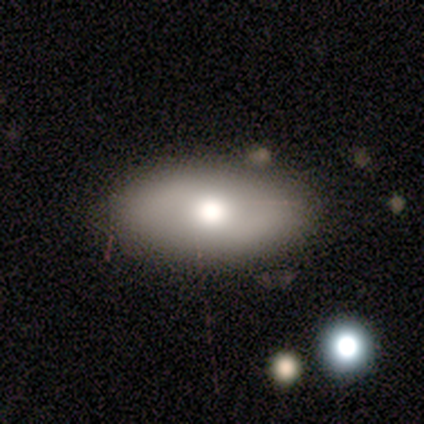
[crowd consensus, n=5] Smooth or featured? 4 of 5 (80%) said smooth. How rounded? 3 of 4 (75%) said in between. Merging? 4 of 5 (80%) said none.